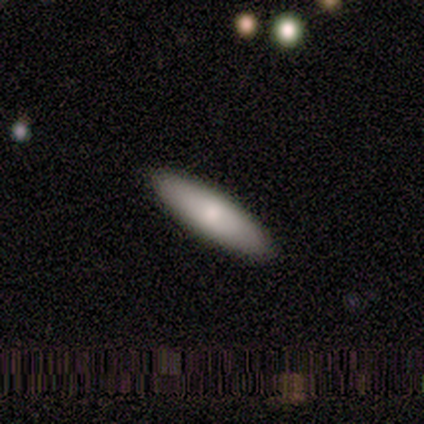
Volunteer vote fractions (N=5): Overall: smooth (80%). How rounded: cigar-shaped (100%). Merging: none (100%).